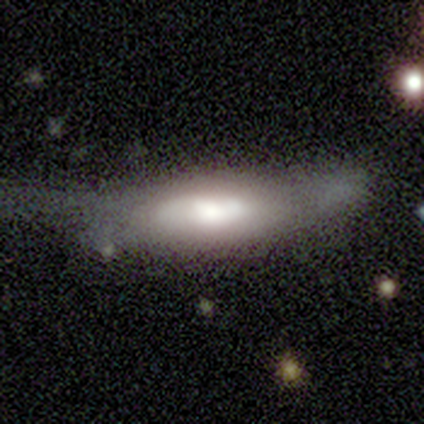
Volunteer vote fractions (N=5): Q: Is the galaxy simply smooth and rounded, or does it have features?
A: smooth — 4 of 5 (80%).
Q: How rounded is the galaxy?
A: in between — 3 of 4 (75%).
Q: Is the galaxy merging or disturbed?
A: minor disturbance — 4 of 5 (80%).